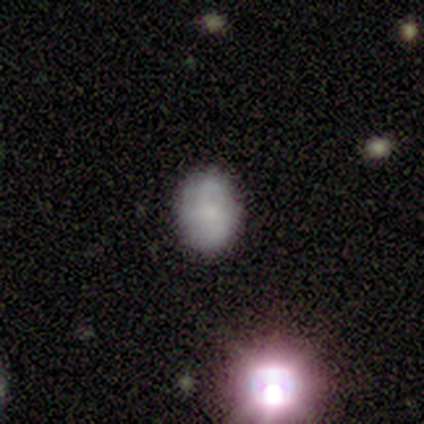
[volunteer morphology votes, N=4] A smooth galaxy with no disk features (75%) that is in between round and cigar-shaped (100%).

Vote fractions:
- Smooth or featured? smooth: 75% / star or artifact: 25% / featured or disk: 0%
- How rounded? in between: 100% / round: 0% / cigar-shaped: 0%
- Merging? none: 100% / minor disturbance: 0% / major disturbance: 0% / merger: 0%